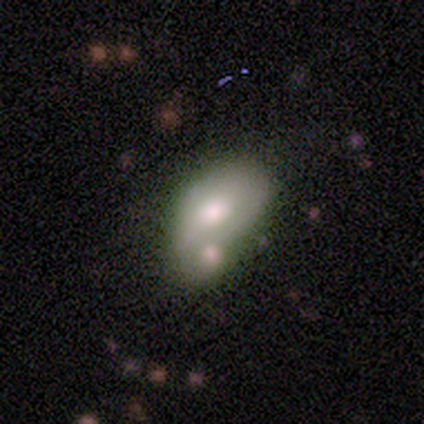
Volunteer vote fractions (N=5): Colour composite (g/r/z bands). It shows a smooth galaxy with no disk features (60%) that is in between round and cigar-shaped (67%). Merging: merger (100%).